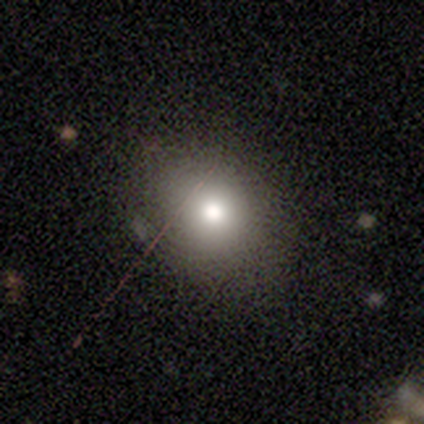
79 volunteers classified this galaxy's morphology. smooth 90%, star or artifact 8%, featured or disk 3%. Down the decision tree: how rounded — round (59%); merging — none (56%).